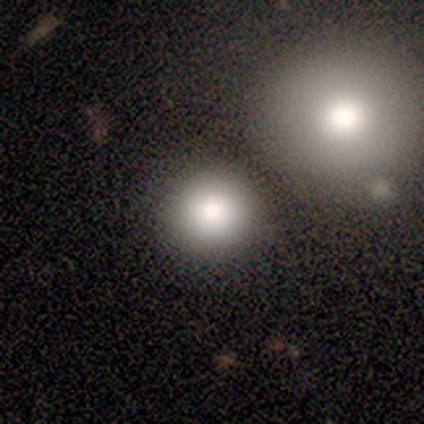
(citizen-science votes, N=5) Q: Smooth or featured?
A: smooth (80%); runner-up: star or artifact (20%)
Q: How rounded?
A: round (75%); runner-up: in between (25%)
Q: Merging?
A: none (75%); runner-up: major disturbance (25%)